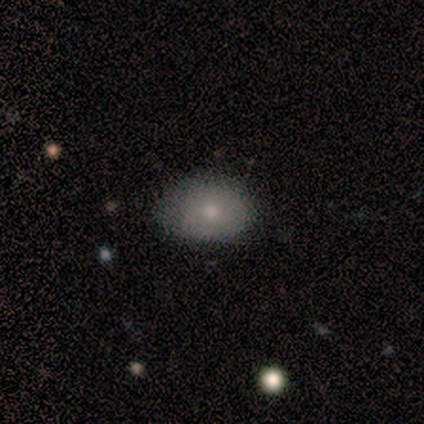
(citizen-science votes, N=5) This appears to be a smooth galaxy with no disk features (60%) that is in between round and cigar-shaped (67%). Merging: none (80%).